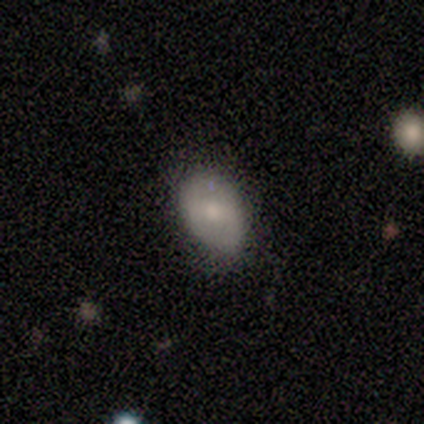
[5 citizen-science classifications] Smooth or featured: featured or disk — 80% (smooth — 20%)
Edge-on disk: no — 100%
Bar: weak — 100%
Spiral arms: yes — 75% (no — 25%)
Spiral winding: medium — 67% (loose — 33%)
Spiral arm count: 2 — 67% (can't tell — 33%)
Bulge size: small — 75% (moderate — 25%)
Merging: none — 100%